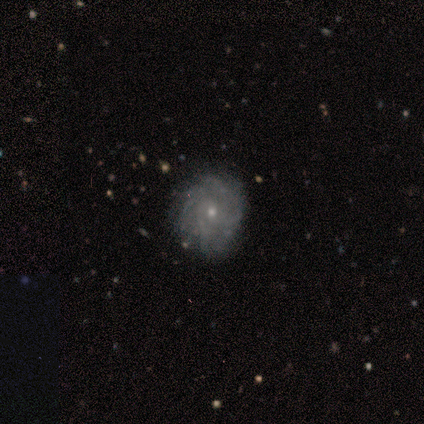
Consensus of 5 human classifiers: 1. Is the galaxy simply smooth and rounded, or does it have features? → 40% smooth (tied), 40% featured or disk (tied), 20% star or artifact.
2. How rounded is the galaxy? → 100% round, 0% in between, 0% cigar-shaped.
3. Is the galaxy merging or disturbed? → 100% none, 0% minor disturbance, 0% major disturbance, 0% merger.